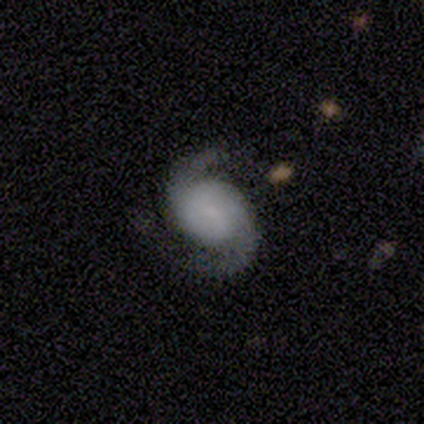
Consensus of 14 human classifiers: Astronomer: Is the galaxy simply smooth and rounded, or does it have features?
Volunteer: featured or disk — 93%.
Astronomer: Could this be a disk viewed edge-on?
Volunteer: no — 100%.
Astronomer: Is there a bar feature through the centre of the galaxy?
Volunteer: no — 77%.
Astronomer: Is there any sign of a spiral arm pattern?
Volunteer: yes — 100%.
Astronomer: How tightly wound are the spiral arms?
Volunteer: medium — 69%.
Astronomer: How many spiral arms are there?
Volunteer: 2 — 100%.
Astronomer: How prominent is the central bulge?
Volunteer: small — 46% (runner-up: none, 31%).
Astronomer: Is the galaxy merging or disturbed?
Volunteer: none — 85%.